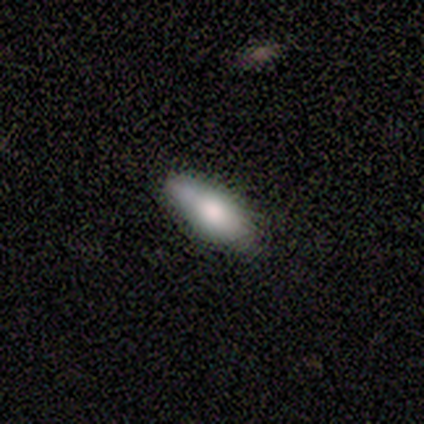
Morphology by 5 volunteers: This appears to be a smooth galaxy with no disk features (100%) that is in between round and cigar-shaped (60%). Merging: none (60%).